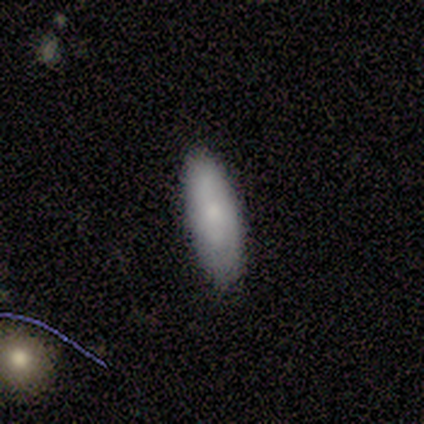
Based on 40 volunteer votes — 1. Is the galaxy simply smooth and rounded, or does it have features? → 75% smooth, 22% featured or disk, 2% star or artifact.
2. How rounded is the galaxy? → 60% in between, 40% cigar-shaped, 0% round.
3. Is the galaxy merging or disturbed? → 77% none, 23% minor disturbance, 0% major disturbance, 0% merger.